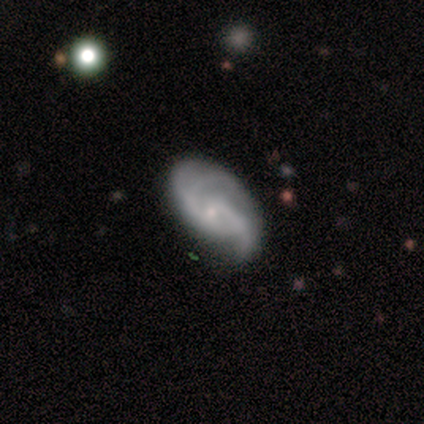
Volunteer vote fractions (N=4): Volunteers were most divided on "spiral arm count" (2-way tie): 3: 50%, can't tell: 50%, 1: 0%, 2: 0%, 4: 0%, more than 4: 0%. More confident: edge-on disk — no (100%); bar — no (100%); spiral winding — medium (100%); bulge size — small (100%); smooth or featured — featured or disk (75%); merging — none (75%); spiral arms — yes (67%).